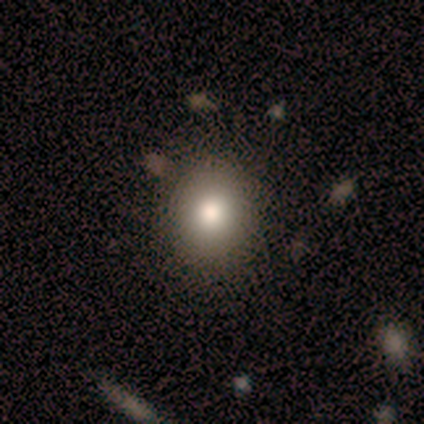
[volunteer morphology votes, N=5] smooth-or-featured: smooth: 100% | featured or disk: 0% | star or artifact: 0%
  how-rounded: round: 100% | in between: 0% | cigar-shaped: 0%
  merging: none: 100% | minor disturbance: 0% | major disturbance: 0% | merger: 0%